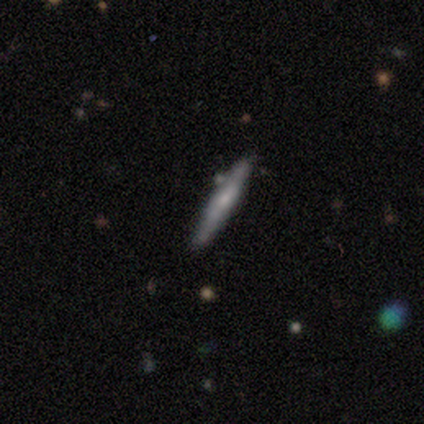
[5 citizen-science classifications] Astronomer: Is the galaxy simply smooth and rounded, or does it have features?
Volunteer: smooth — 60% (runner-up: featured or disk, 40%).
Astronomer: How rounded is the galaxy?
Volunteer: cigar-shaped — 100%.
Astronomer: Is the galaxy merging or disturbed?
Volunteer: none — 80%.